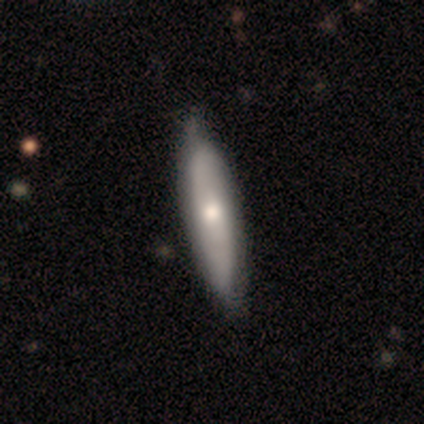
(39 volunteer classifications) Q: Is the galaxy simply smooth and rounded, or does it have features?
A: featured or disk — 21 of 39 (54%).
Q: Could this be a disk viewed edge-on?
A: no — 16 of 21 (76%).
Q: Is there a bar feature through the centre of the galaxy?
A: no — 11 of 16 (69%).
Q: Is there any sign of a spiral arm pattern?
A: yes — 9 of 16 (56%).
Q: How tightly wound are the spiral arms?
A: loose — 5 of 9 (56%).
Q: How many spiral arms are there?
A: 2 — 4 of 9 (44%).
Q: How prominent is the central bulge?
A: moderate — 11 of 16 (69%).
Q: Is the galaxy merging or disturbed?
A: none — 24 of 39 (62%).